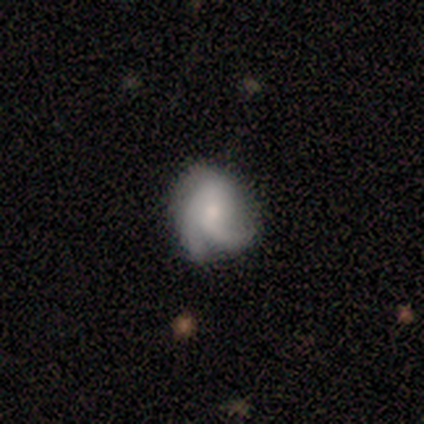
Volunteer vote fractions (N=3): smooth-or-featured: featured or disk: 67% | star or artifact: 33% | smooth: 0%
  disk-edge-on: no: 100% | yes: 0%
    bar: weak: 50% (tied) | no: 50% (tied) | strong: 0%
    has-spiral-arms: yes: 100% | no: 0%
      spiral-winding: medium: 50% (tied) | loose: 50% (tied) | tight: 0%
      spiral-arm-count: 2: 50% (tied) | 3: 50% (tied) | 1: 0% | 4: 0% | more than 4: 0% | can't tell: 0%
    bulge-size: moderate: 100% | dominant: 0% | large: 0% | small: 0% | none: 0%
  merging: none: 100% | minor disturbance: 0% | major disturbance: 0% | merger: 0%